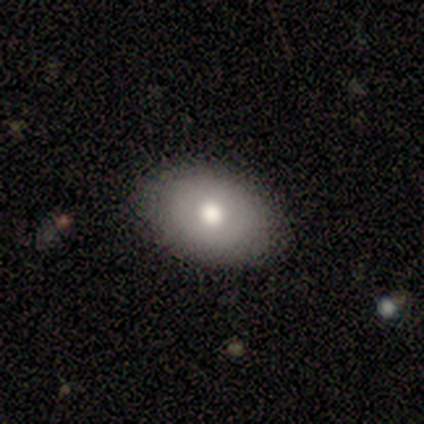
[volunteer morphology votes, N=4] This appears to be a smooth galaxy with no disk features (50%) that is round (50%, tied with in between). Merging: none (100%).